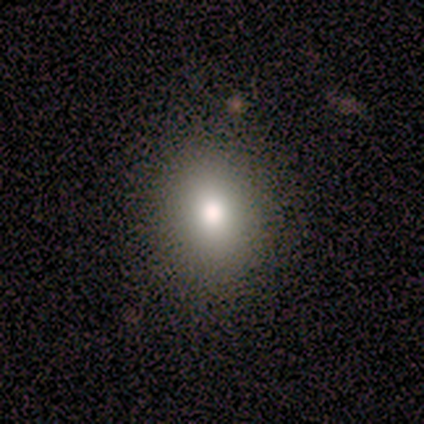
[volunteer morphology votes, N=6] This is clearly a smooth galaxy (83%). How rounded: clearly round (80%). Merging: clearly none (100%).